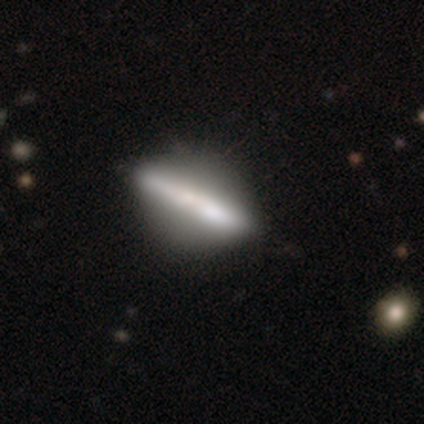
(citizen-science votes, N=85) Overall: featured or disk (56%; smooth 38%). Edge-on disk: yes (77%). Edge-on bulge: none (54%; rounded 32%). Merging: none (68%).